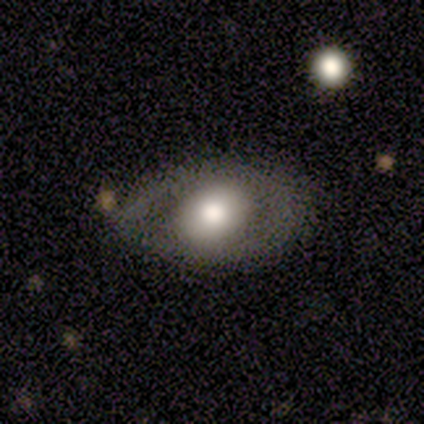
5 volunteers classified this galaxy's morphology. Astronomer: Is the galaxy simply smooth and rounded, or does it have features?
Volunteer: featured or disk — 60% (runner-up: smooth, 40%).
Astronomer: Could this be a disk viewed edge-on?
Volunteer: no — 67%.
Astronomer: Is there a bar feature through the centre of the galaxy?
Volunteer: no — 100%.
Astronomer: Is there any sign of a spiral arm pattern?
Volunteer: no — 100%.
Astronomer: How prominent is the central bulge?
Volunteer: dominant — 50%, tied with moderate at 50%.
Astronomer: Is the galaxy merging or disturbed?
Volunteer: major disturbance — 60% (runner-up: minor disturbance, 40%).